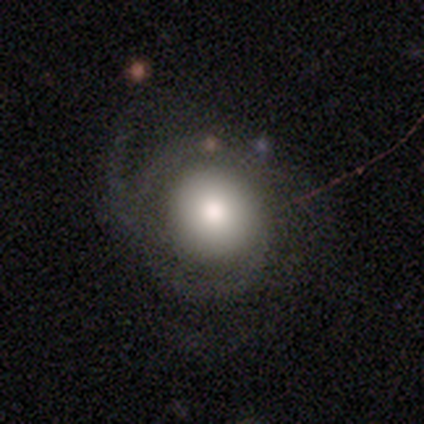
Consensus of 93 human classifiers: smooth_or_featured: smooth (p=0.45) [alt: featured or disk p=0.44]
how_rounded: round (p=0.95) [alt: in between p=0.05]
merging: none (p=0.58) [alt: major disturbance p=0.25]